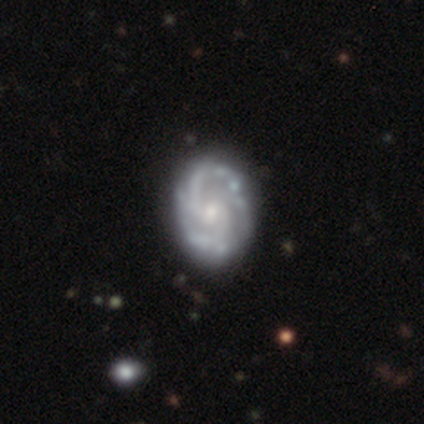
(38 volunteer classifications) smooth-or-featured: featured or disk: 97% | smooth: 3% | star or artifact: 0%
  disk-edge-on: no: 97% | yes: 3%
    bar: weak: 50% (tied) | no: 50% (tied) | strong: 0%
    has-spiral-arms: yes: 97% | no: 3%
      spiral-winding: medium: 66% | tight: 23% | loose: 11%
      spiral-arm-count: 2: 77% | 3: 17% | can't tell: 6% | 1: 0% | 4: 0% | more than 4: 0%
    bulge-size: small: 61% | moderate: 33% | large: 6% | dominant: 0% | none: 0%
  merging: none: 58% | minor disturbance: 16% | merger: 5% | major disturbance: 0%